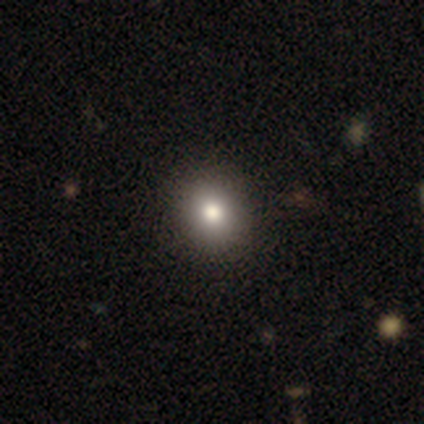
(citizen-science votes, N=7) Smooth or featured?
  - smooth: 86% *
  - featured or disk: 14%
  - star or artifact: 0%
How rounded?
  - round: 83% *
  - in between: 17%
  - cigar-shaped: 0%
Merging?
  - none: 100% *
  - minor disturbance: 0%
  - major disturbance: 0%
  - merger: 0%